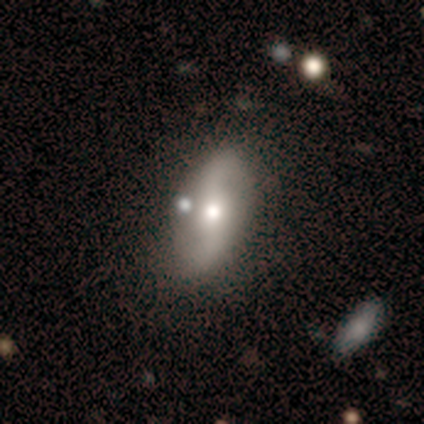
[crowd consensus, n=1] Consensus on every question: smooth or featured — featured or disk (100%); edge-on disk — no (100%); bar — no (100%); spiral arms — no (100%); bulge size — moderate (100%); merging — none (100%).